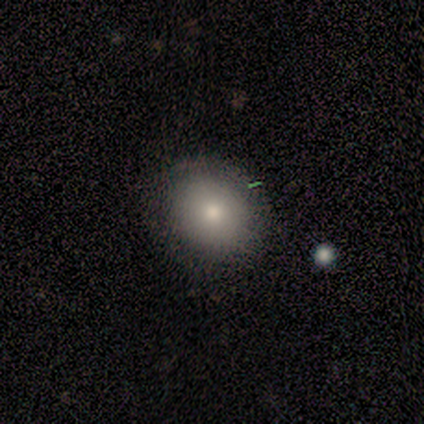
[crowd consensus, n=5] A smooth galaxy with no disk features (60%) that is round (100%). Merging: none (75%).